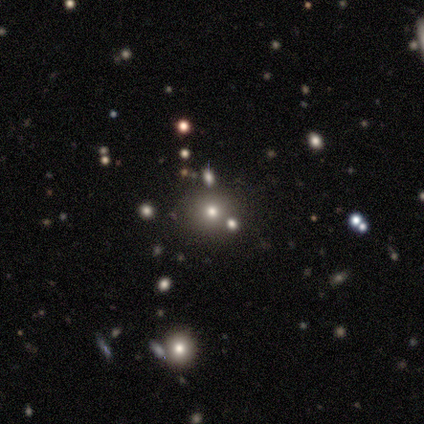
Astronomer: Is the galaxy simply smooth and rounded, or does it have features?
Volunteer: smooth — 80%.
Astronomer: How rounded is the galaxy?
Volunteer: round — 75%.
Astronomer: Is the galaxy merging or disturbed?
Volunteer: none — 75%.